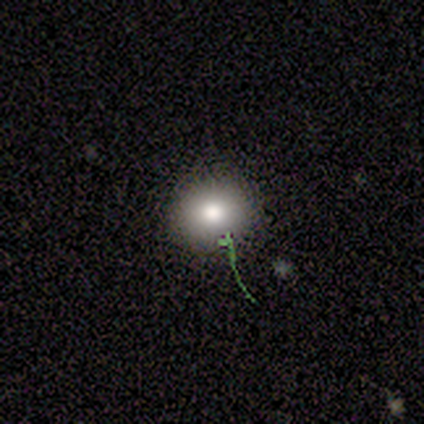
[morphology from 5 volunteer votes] type=smooth (80%); roundness=round (75%); merging=none (100%).